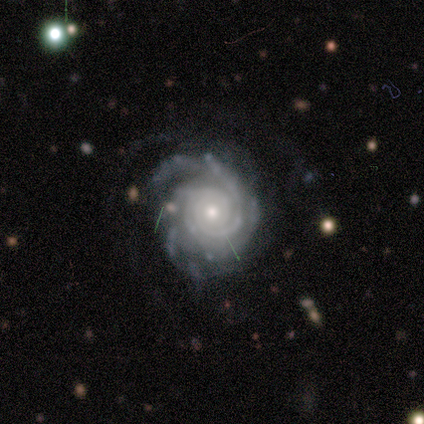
Smooth or featured?
  - featured or disk: 100% *
  - smooth: 0%
  - star or artifact: 0%
Edge-on disk?
  - no: 100% *
  - yes: 0%
Bar?
  - no: 80% *
  - strong: 20%
  - weak: 0%
Spiral arms?
  - yes: 100% *
  - no: 0%
Spiral winding?
  - tight: 60% *
  - medium: 40%
  - loose: 0%
Spiral arm count?
  - 2: 40% * (tied)
  - can't tell: 40% * (tied)
  - 3: 20%
  - 1: 0%
  - 4: 0%
  - more than 4: 0%
Bulge size?
  - small: 60% *
  - moderate: 40%
  - dominant: 0%
  - large: 0%
  - none: 0%
Merging?
  - none: 80% *
  - minor disturbance: 20%
  - major disturbance: 0%
  - merger: 0%